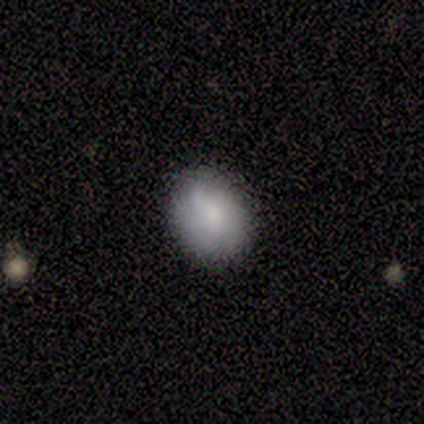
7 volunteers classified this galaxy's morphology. This is clearly a smooth galaxy (86%). How rounded: likely round (67%). Merging: possibly none (57%).